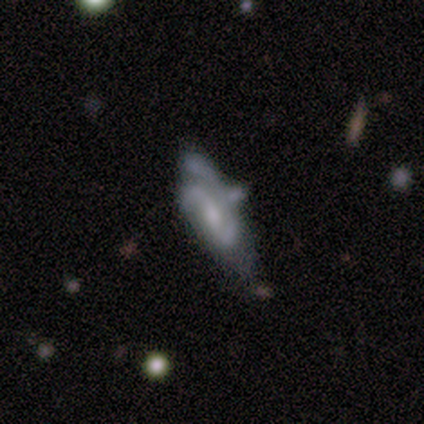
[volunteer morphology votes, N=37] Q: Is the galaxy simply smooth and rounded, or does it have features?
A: featured or disk — 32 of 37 (86%).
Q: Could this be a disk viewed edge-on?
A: no — 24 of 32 (75%).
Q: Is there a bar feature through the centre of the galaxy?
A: weak — 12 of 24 (50%).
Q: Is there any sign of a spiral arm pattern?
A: yes — 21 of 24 (88%).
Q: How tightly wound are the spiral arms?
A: medium — 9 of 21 (43%).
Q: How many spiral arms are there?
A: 2 — 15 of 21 (71%).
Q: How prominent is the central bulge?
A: moderate — 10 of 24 (42%).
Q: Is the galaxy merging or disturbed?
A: minor disturbance — 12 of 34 (35%).